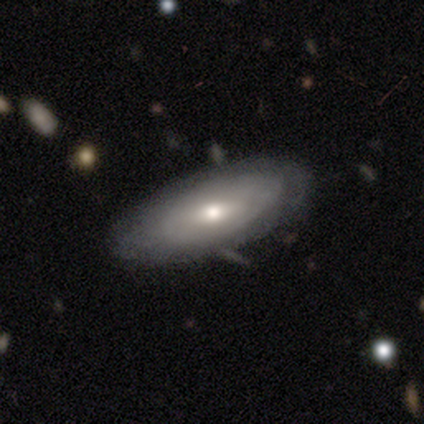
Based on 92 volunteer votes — Smooth or featured? smooth (53%)
How rounded? in between (76%)
Merging? none (81%)